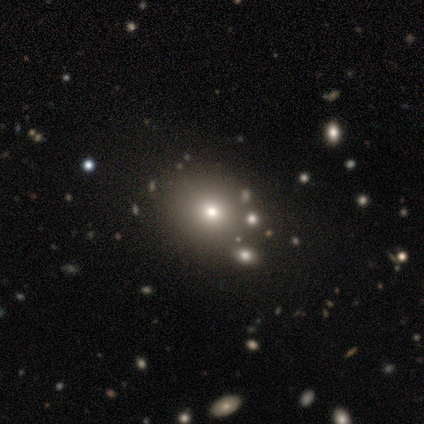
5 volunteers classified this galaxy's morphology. This appears to be a smooth galaxy with no disk features (100%) that is round (100%). Merging: none (80%).